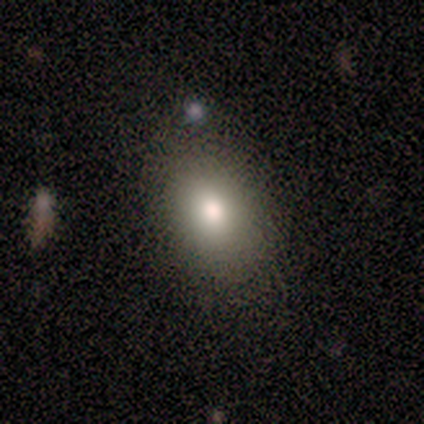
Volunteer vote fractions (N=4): This is likely a smooth galaxy (75%). How rounded: likely in between (67%). Merging: likely none (67%).